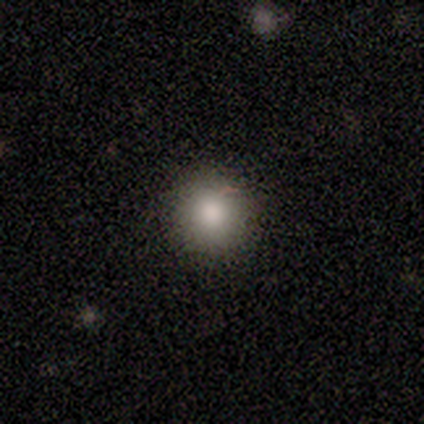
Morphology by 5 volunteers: Q: Smooth or featured?
A: smooth (60%); runner-up: featured or disk (20%)
Q: How rounded?
A: round (100%)
Q: Merging?
A: none (100%)